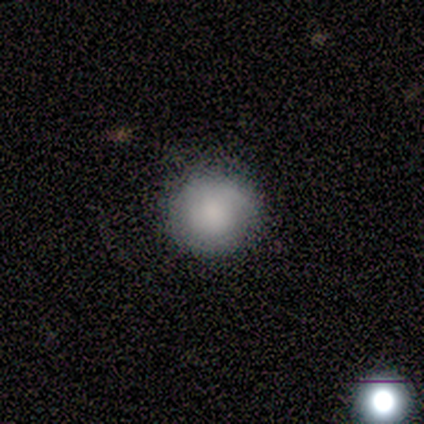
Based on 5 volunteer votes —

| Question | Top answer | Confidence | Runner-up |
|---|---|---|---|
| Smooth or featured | smooth | 60% | featured or disk (40%) |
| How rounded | round | 100% | — |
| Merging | none | 80% | minor disturbance (20%) |